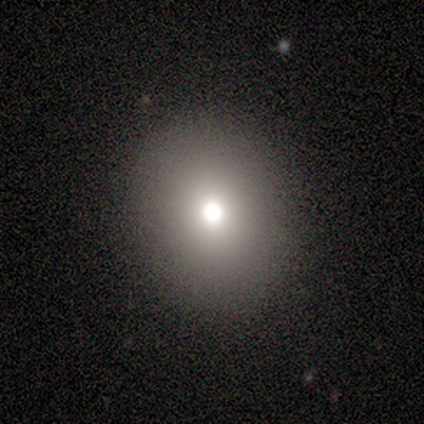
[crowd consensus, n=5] smooth 80%, star or artifact 20%, featured or disk 0%. Down the decision tree: how rounded — round (75%); merging — none (100%).